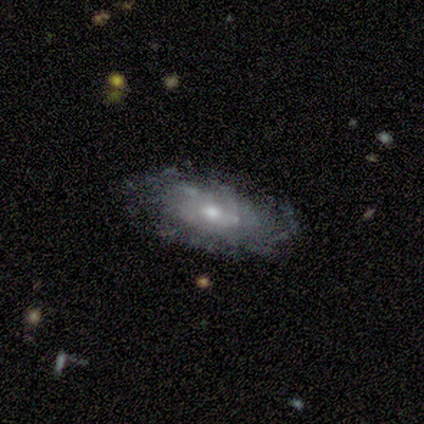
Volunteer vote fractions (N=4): Smooth or featured?
  - featured or disk: 100% *
  - smooth: 0%
  - star or artifact: 0%
Edge-on disk?
  - no: 100% *
  - yes: 0%
Bar?
  - no: 100% *
  - strong: 0%
  - weak: 0%
Spiral arms?
  - yes: 50% * (tied)
  - no: 50% * (tied)
Spiral winding?
  - tight: 50% * (tied)
  - loose: 50% * (tied)
  - medium: 0%
Spiral arm count?
  - can't tell: 100% *
  - 1: 0%
  - 2: 0%
  - 3: 0%
  - 4: 0%
  - more than 4: 0%
Bulge size?
  - moderate: 50% * (tied)
  - small: 50% * (tied)
  - dominant: 0%
  - large: 0%
  - none: 0%
Merging?
  - none: 75% *
  - minor disturbance: 25%
  - major disturbance: 0%
  - merger: 0%